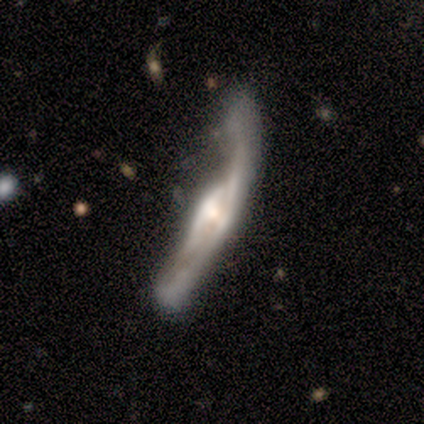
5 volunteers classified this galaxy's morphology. This appears to be a featured or disk galaxy (60%) viewed edge-on (67%) with no central bulge (50%, tied with rounded). Merging: minor disturbance (50%).